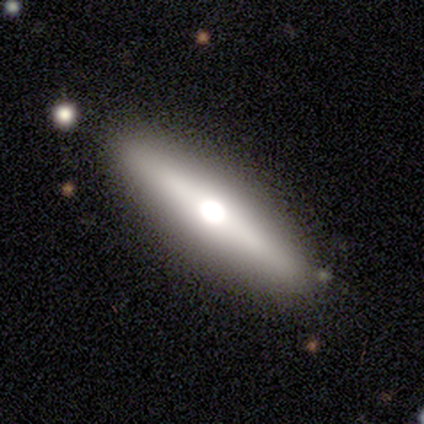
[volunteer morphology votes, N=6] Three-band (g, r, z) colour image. It shows a featured or disk galaxy (67%) viewed edge-on (75%) with a rounded central bulge (100%). Merging: none (67%).